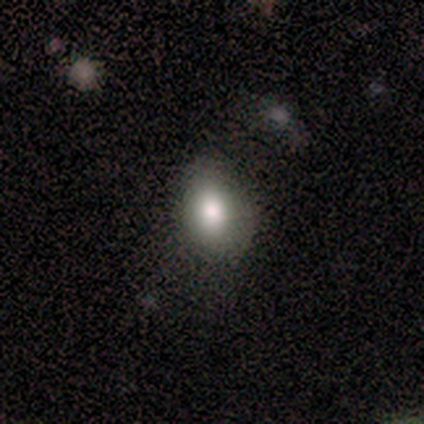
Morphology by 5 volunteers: A smooth galaxy with no disk features (100%) that is in between round and cigar-shaped (60%). Merging: none (40%, tied with minor disturbance).